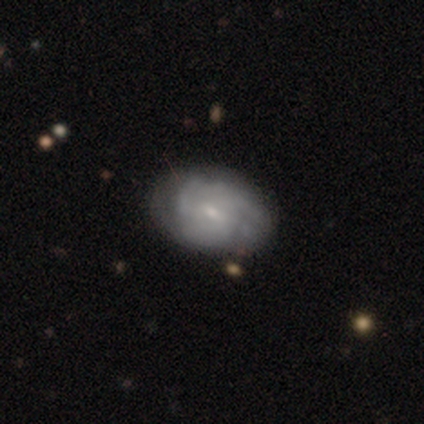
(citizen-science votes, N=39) A featured or disk galaxy (67%) with a weak bar (58%), 2 (30%, tied with 3) tight (52%) spiral arms (88%) and a small central bulge (69%). Merging: none (83%).